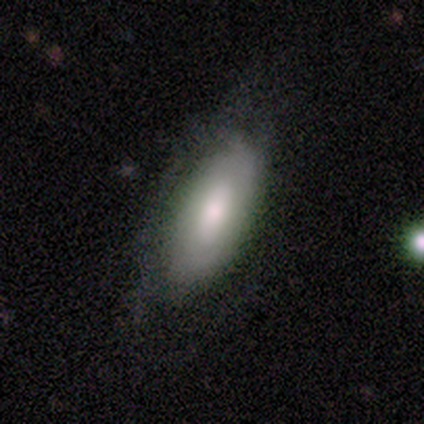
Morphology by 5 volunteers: smooth 60%, featured or disk 40%, star or artifact 0%. Down the decision tree: how rounded — in between (100%); merging — none (80%).